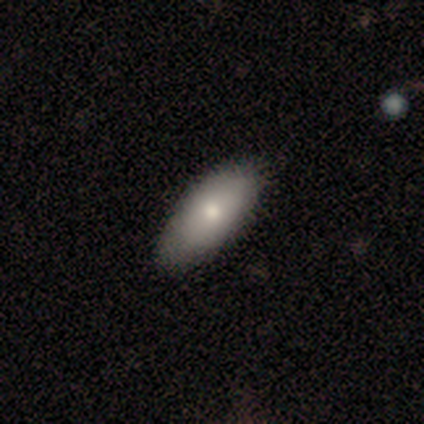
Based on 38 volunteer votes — smooth_or_featured: smooth (p=0.87) [alt: featured or disk p=0.13]
how_rounded: in between (p=0.88) [alt: cigar-shaped p=0.09]
merging: none (p=0.71) [alt: minor disturbance p=0.08]